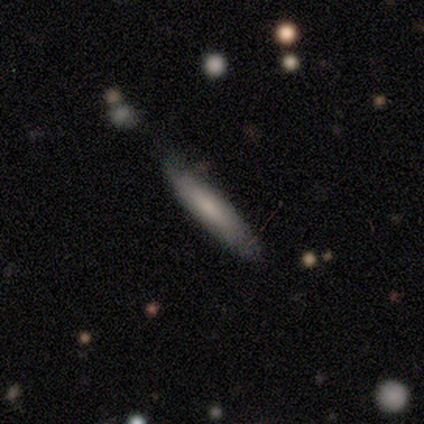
Morphology: type=smooth (80%); roundness=cigar-shaped (100%); merging=none (100%).